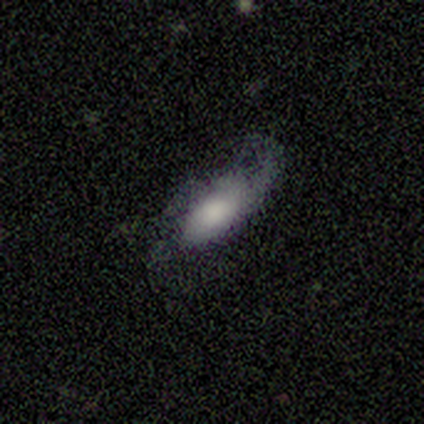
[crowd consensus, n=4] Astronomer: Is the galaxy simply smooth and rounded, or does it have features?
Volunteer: smooth — 75%.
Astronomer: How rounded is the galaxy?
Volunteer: in between — 100%.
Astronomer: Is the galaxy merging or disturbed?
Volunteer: minor disturbance — 50%.